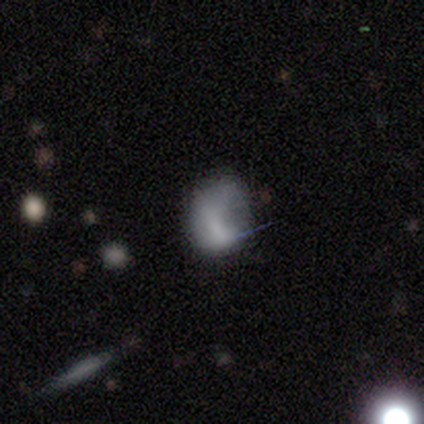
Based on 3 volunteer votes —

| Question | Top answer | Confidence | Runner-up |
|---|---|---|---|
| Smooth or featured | smooth | 67% | featured or disk (33%) |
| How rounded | in between | 100% | — |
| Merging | minor disturbance | 67% | major disturbance (33%) |